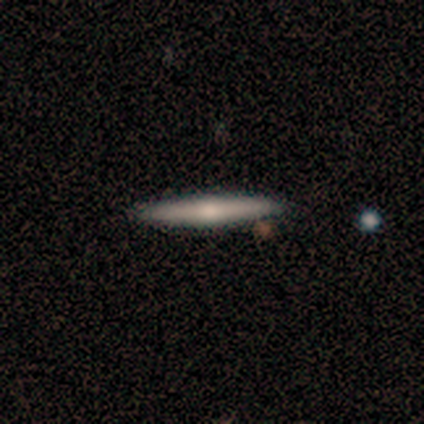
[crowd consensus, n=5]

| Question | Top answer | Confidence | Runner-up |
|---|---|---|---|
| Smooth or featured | smooth | 80% | featured or disk (20%) |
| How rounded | cigar-shaped | 100% | — |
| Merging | none | 80% | major disturbance (20%) |